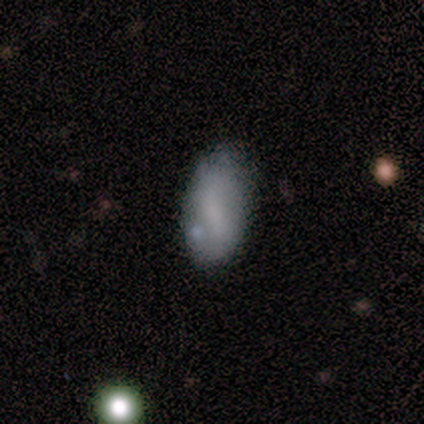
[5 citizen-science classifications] smooth-or-featured: smooth: 80% | featured or disk: 20% | star or artifact: 0%
  how-rounded: in between: 100% | round: 0% | cigar-shaped: 0%
  merging: none: 80% | minor disturbance: 20% | major disturbance: 0% | merger: 0%